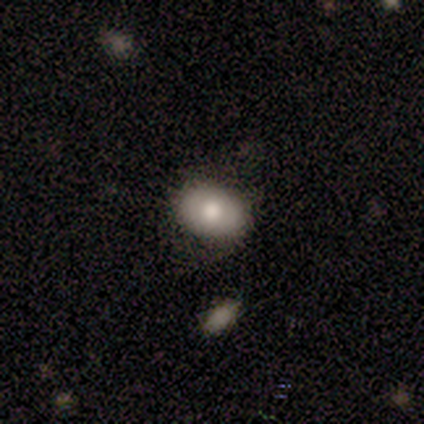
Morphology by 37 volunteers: smooth_or_featured: smooth (p=0.76) [alt: featured or disk p=0.14]
how_rounded: in between (p=0.82) [alt: round p=0.18]
merging: none (p=0.55) [alt: minor disturbance p=0.06]